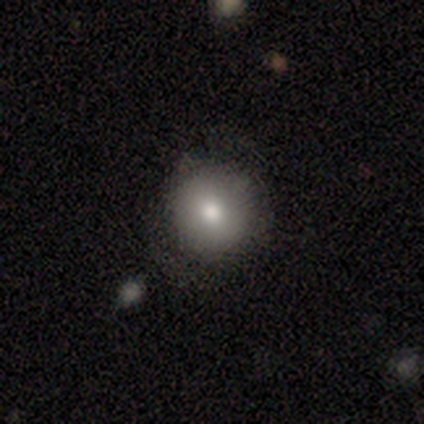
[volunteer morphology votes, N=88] Volunteers were most divided on "smooth or featured": smooth: 81%, featured or disk: 12%, star or artifact: 7%. More confident: how rounded — round (93%); merging — none (84%).